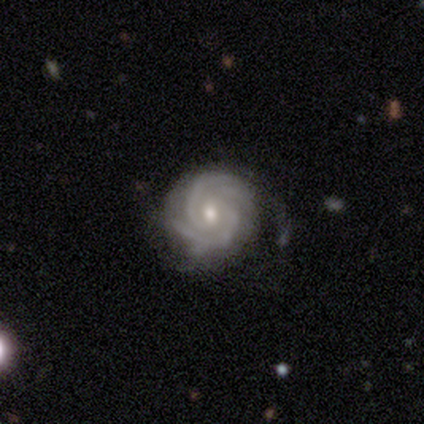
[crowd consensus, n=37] This appears to be a featured or disk galaxy (95%) with no bar (68%), 2 (41%) tight (82%) spiral arms (100%) and a moderate central bulge (59%). Merging: none (69%).